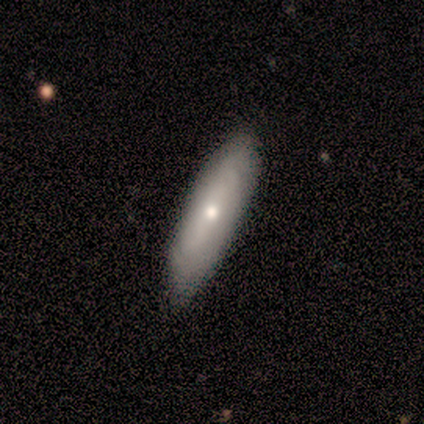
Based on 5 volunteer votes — Smooth or featured?
  - featured or disk: 80% *
  - smooth: 20%
  - star or artifact: 0%
Edge-on disk?
  - no: 75% *
  - yes: 25%
Bar?
  - no: 100% *
  - strong: 0%
  - weak: 0%
Spiral arms?
  - yes: 67% *
  - no: 33%
Spiral winding?
  - tight: 50% * (tied)
  - medium: 50% * (tied)
  - loose: 0%
Spiral arm count?
  - can't tell: 100% *
  - 1: 0%
  - 2: 0%
  - 3: 0%
  - 4: 0%
  - more than 4: 0%
Bulge size?
  - small: 100% *
  - dominant: 0%
  - large: 0%
  - moderate: 0%
  - none: 0%
Merging?
  - none: 100% *
  - minor disturbance: 0%
  - major disturbance: 0%
  - merger: 0%